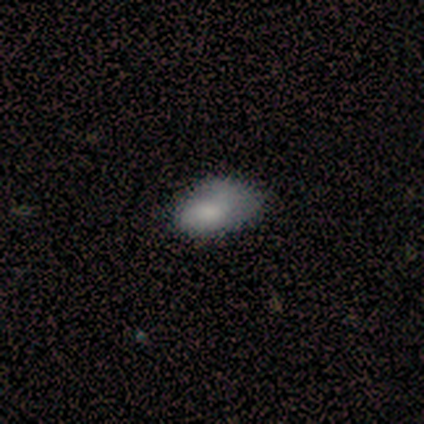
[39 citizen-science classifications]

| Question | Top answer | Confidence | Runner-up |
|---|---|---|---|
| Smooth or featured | smooth | 72% | featured or disk (15%) |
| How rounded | in between | 96% | round (4%) |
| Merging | minor disturbance | 47% | none (44%) |